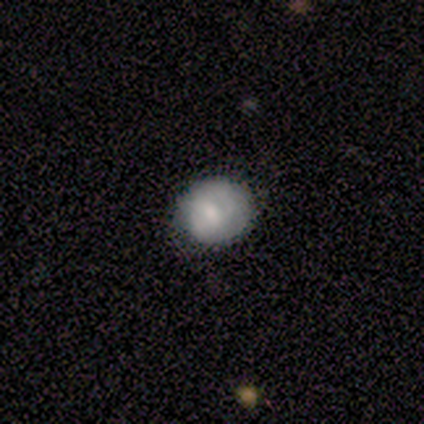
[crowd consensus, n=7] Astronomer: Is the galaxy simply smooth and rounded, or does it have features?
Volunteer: smooth — 57% (runner-up: featured or disk, 43%).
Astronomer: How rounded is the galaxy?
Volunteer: round — 75%.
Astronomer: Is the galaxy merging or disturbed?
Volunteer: none — 100%.